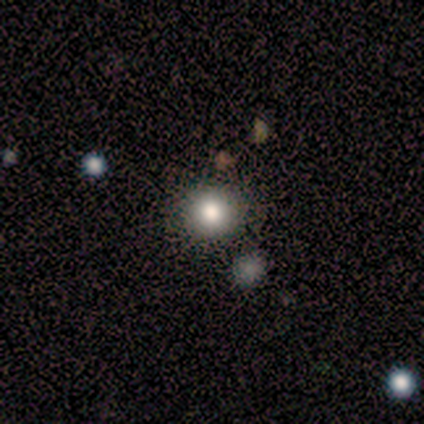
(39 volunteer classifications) smooth 77%, star or artifact 18%, featured or disk 5%. Down the decision tree: how rounded — round (97%); merging — none (91%).